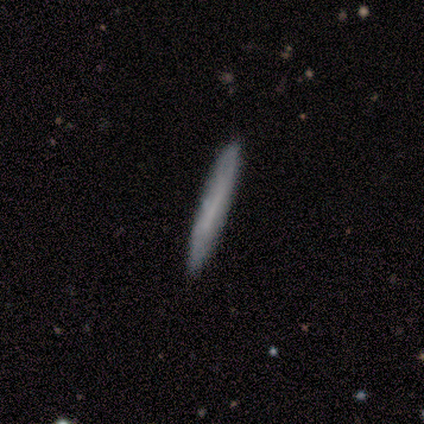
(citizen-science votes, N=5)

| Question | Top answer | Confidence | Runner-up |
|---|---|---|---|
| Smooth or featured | smooth | 60% | featured or disk (40%) |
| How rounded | cigar-shaped | 67% | in between (33%) |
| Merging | none | 100% | — |